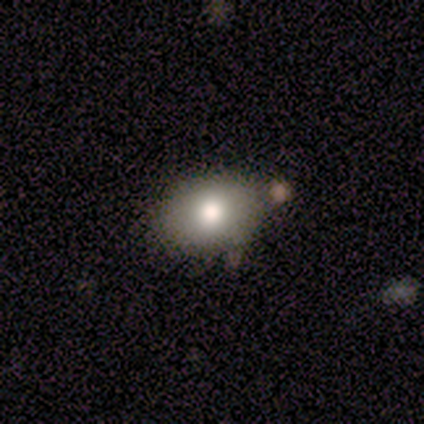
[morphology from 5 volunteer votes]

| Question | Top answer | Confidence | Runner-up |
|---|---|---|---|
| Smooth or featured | smooth | 100% | — |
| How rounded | in between | 60% | round (40%) |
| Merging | none | 80% | minor disturbance (20%) |